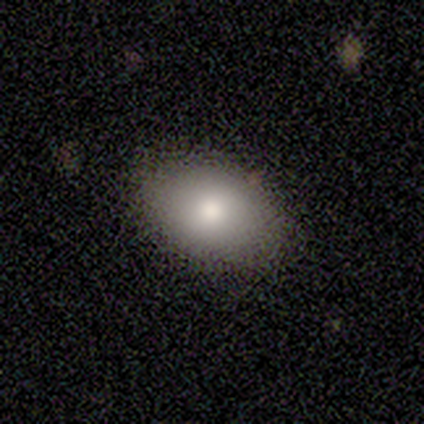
Morphology: type=smooth (100%); roundness=in between (100%); merging=none (100%).